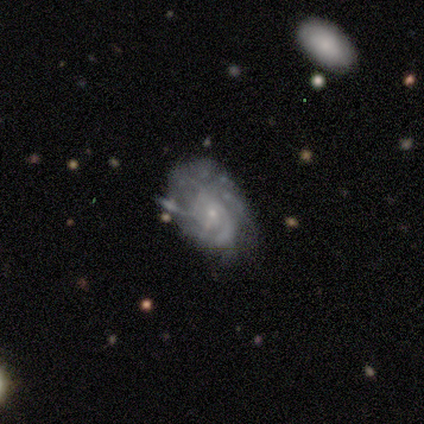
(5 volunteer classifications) Smooth or featured? 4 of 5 (80%) said featured or disk. Edge-on disk? 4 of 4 (100%) said no. Bar? 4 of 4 (100%) said no. Spiral arms? 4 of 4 (100%) said yes. Spiral winding? 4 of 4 (100%) said tight. Spiral arm count? 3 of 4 (75%) said can't tell. Bulge size? 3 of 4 (75%) said small. Merging? 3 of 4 (75%) said minor disturbance.